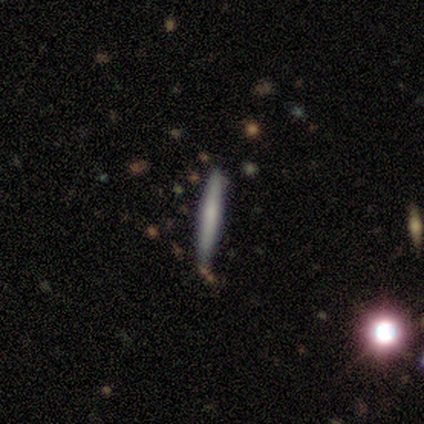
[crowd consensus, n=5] A smooth galaxy with no disk features (80%) that is cigar-shaped (100%). Merging: none (100%).